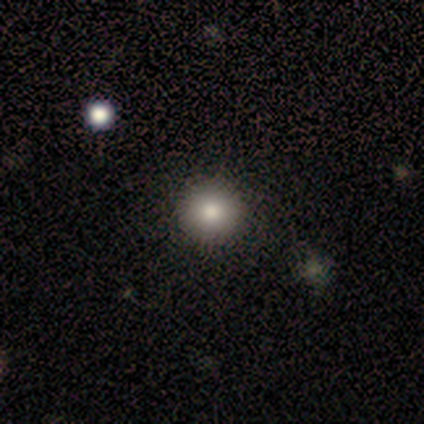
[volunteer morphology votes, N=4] Volunteers were most divided on "how rounded": round: 67%, in between: 33%, cigar-shaped: 0%. More confident: smooth or featured — smooth (75%); merging — none (67%).